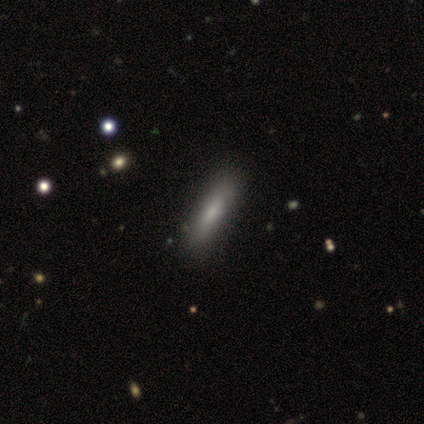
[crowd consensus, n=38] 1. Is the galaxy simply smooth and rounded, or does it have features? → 68% smooth, 24% featured or disk, 8% star or artifact.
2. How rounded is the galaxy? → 77% cigar-shaped, 19% in between, 4% round.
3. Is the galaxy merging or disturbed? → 69% none, 6% minor disturbance, 6% merger, 0% major disturbance.